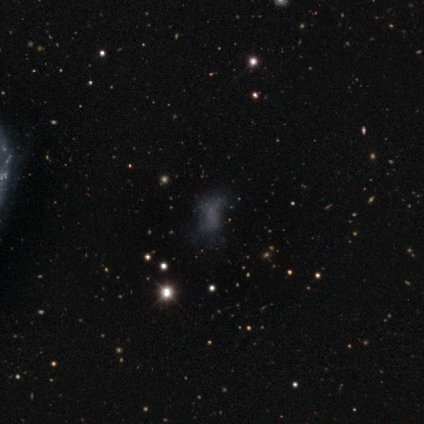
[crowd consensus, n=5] A smooth galaxy with no disk features (60%) that is in between round and cigar-shaped (100%).

Vote fractions:
- Smooth or featured? smooth: 60% / featured or disk: 20% / star or artifact: 20%
- How rounded? in between: 100% / round: 0% / cigar-shaped: 0%
- Merging? minor disturbance: 50% (tied) / major disturbance: 50% (tied) / none: 0% / merger: 0%